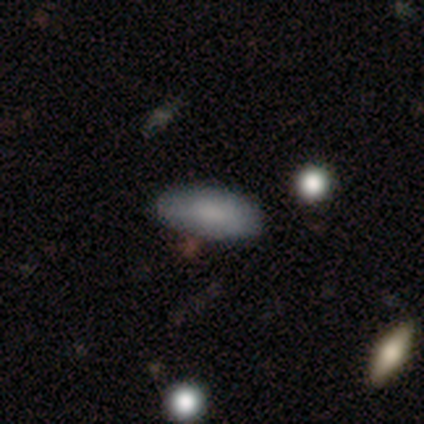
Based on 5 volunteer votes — This is clearly a smooth galaxy (80%). How rounded: likely in between (75%). Merging: clearly none (80%).